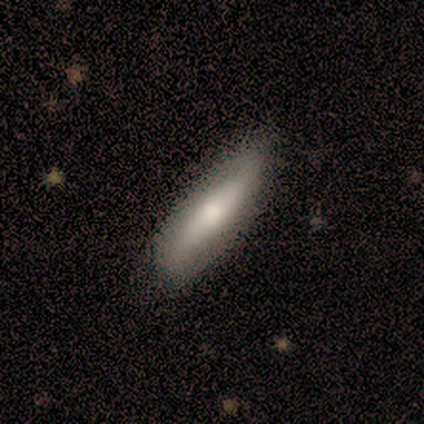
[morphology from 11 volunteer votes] Smooth or featured: featured or disk — 55% (smooth — 45%)
Edge-on disk: yes — 67% (no — 33%)
Edge-on bulge: rounded — 100%
Merging: none — 82% (minor disturbance — 18%)